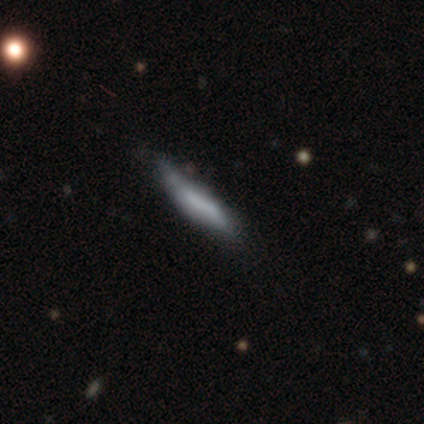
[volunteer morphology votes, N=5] Smooth or featured? 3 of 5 (60%) said smooth. How rounded? 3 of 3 (100%) said cigar-shaped. Merging? 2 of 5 (40%, tied with minor disturbance) said none.